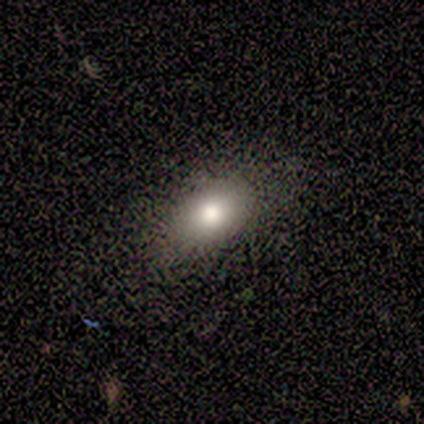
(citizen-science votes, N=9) Smooth or featured? 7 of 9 (78%) said smooth. How rounded? 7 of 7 (100%) said in between. Merging? 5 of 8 (62%) said none.